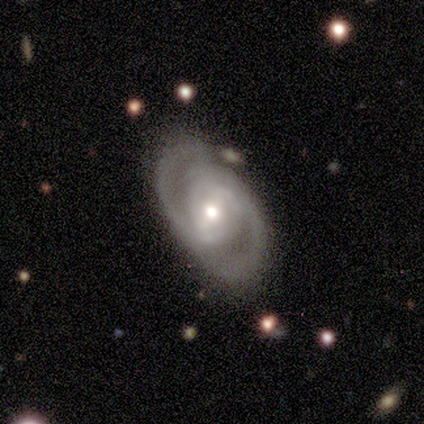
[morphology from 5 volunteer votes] featured or disk 100%, smooth 0%, star or artifact 0%. Down the decision tree: edge-on disk — no (80%); bar — strong (50%); spiral arms — yes (100%); spiral arm count — 2 (75%); spiral winding — medium (75%); bulge size — moderate (75%); merging — none (60%).